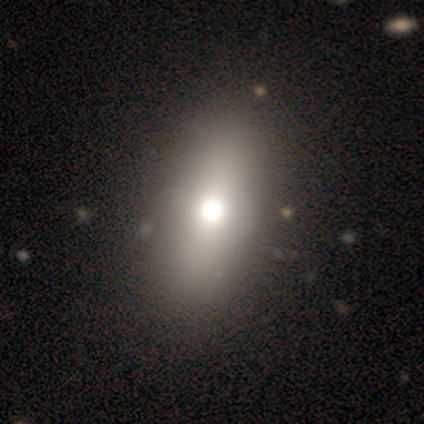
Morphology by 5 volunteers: smooth 40% (tied), star or artifact 40% (tied), featured or disk 20%. Down the decision tree: how rounded — in between (100%); merging — none (100%).